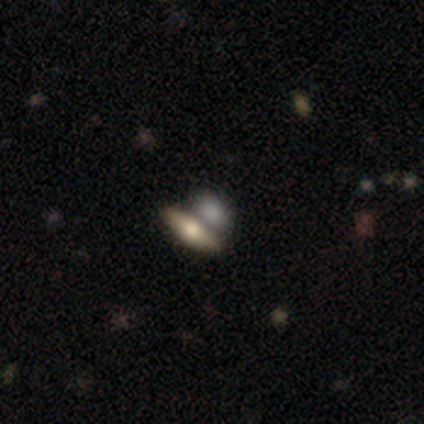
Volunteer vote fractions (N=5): This is likely a smooth galaxy (60%). How rounded: clearly in between (100%). Merging: likely merger (75%).